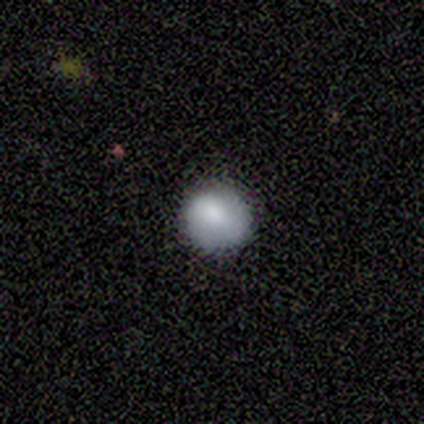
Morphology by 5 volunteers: Smooth or featured? smooth (100%)
How rounded? round (100%)
Merging? none (100%)